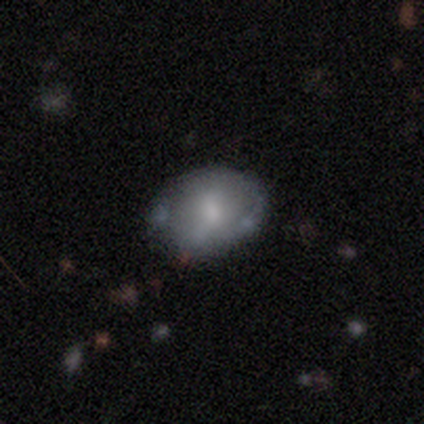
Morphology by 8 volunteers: Q: Smooth or featured?
A: smooth (75%); runner-up: featured or disk (25%)
Q: How rounded?
A: in between (67%); runner-up: round (33%)
Q: Merging?
A: none (38%); tied with: minor disturbance (38%)